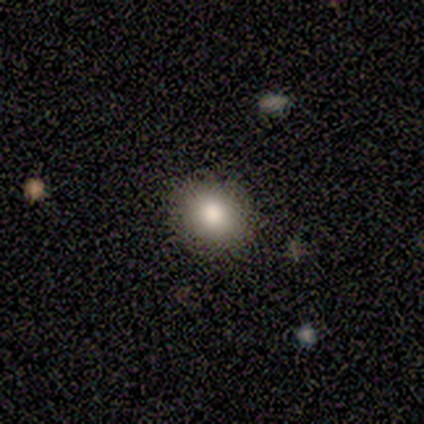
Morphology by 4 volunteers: Smooth or featured? 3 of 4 (75%) said smooth. How rounded? 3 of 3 (100%) said round. Merging? 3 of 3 (100%) said none.